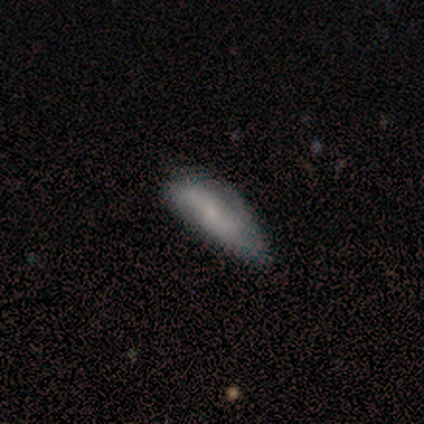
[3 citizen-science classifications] Smooth or featured? smooth (67%)
How rounded? in between (50%, tied with cigar-shaped)
Merging? none (67%)